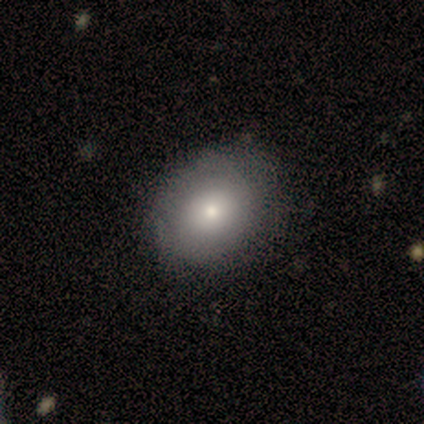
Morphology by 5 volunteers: smooth 80%, featured or disk 20%, star or artifact 0%. Down the decision tree: how rounded — round (50%, tied with in between); merging — none (80%).